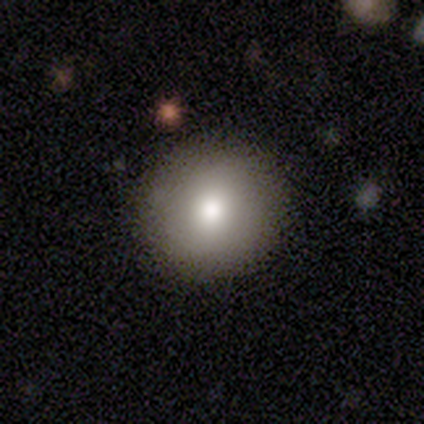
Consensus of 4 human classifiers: Morphology: type=smooth (100%); roundness=round (100%); merging=none (100%).